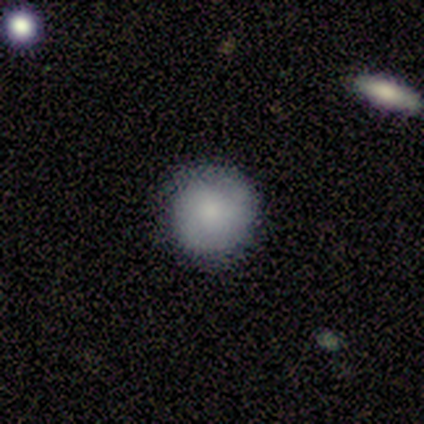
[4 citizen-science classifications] Smooth or featured: smooth — 100%
How rounded: round — 75% (in between — 25%)
Merging: none — 100%